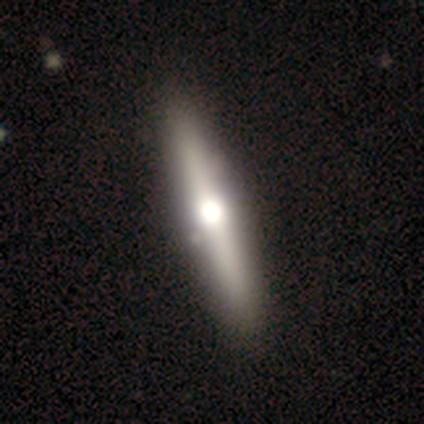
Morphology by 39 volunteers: Smooth or featured?
  - featured or disk: 59% *
  - smooth: 41%
  - star or artifact: 0%
Edge-on disk?
  - yes: 96% *
  - no: 4%
Edge-on bulge?
  - rounded: 100% *
  - boxy: 0%
  - none: 0%
Merging?
  - none: 67% *
  - minor disturbance: 3%
  - major disturbance: 0%
  - merger: 0%